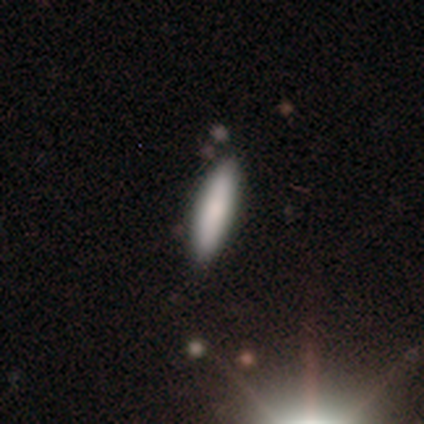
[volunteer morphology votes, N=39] Overall: smooth (90%). How rounded: cigar-shaped (77%). Merging: none (86%).